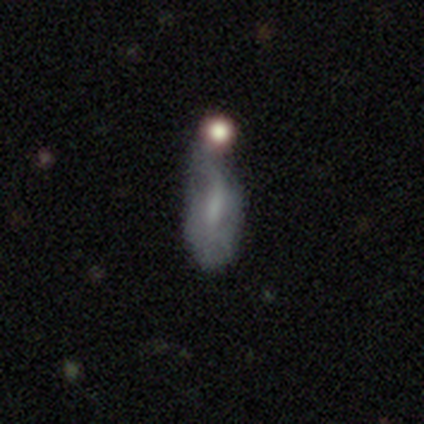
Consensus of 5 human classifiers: Smooth or featured?
  - featured or disk: 60% *
  - smooth: 20%
  - star or artifact: 20%
Edge-on disk?
  - no: 67% *
  - yes: 33%
Bar?
  - strong: 50% * (tied)
  - no: 50% * (tied)
  - weak: 0%
Spiral arms?
  - yes: 50% * (tied)
  - no: 50% * (tied)
Spiral winding?
  - loose: 100% *
  - tight: 0%
  - medium: 0%
Spiral arm count?
  - 1: 100% *
  - 2: 0%
  - 3: 0%
  - 4: 0%
  - more than 4: 0%
  - can't tell: 0%
Bulge size?
  - none: 100% *
  - dominant: 0%
  - large: 0%
  - moderate: 0%
  - small: 0%
Merging?
  - merger: 50% *
  - none: 25%
  - major disturbance: 25%
  - minor disturbance: 0%